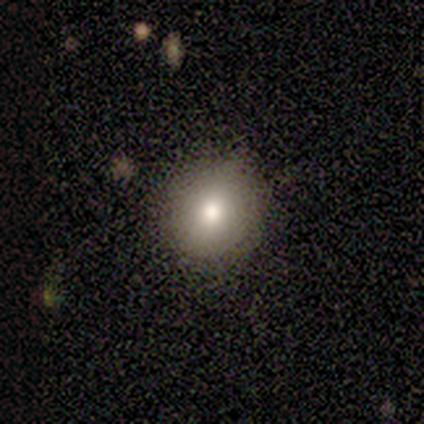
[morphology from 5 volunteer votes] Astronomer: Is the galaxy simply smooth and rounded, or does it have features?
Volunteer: smooth — 80%.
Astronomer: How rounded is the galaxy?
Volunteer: round — 100%.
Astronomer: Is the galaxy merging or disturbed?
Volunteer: none — 75%.